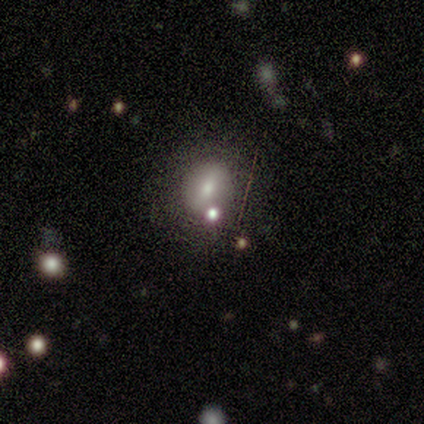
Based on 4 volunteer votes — Smooth or featured? smooth (75%)
How rounded? round (67%)
Merging? none (100%)